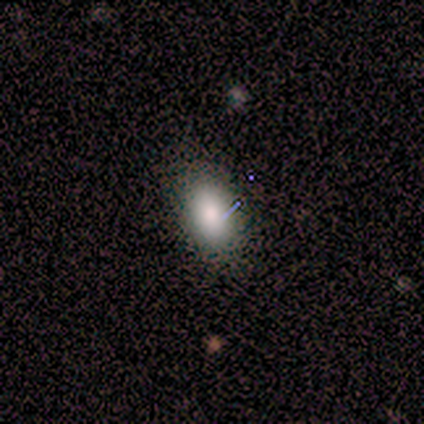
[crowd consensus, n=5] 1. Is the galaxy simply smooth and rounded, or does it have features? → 100% smooth, 0% featured or disk, 0% star or artifact.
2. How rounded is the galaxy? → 80% in between, 20% round, 0% cigar-shaped.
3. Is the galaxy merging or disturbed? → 60% none, 40% minor disturbance, 0% major disturbance, 0% merger.